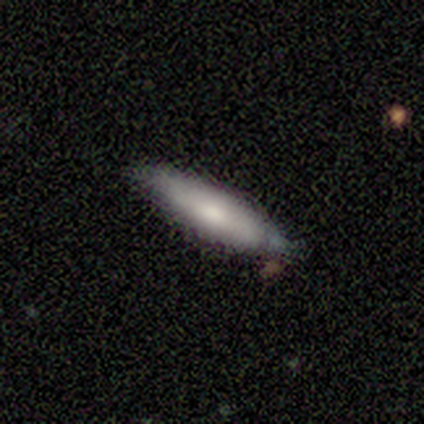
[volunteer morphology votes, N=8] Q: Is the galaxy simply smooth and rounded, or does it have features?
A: smooth — 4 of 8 (50%).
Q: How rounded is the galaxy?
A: cigar-shaped — 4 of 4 (100%).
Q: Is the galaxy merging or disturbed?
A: minor disturbance — 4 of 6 (67%).